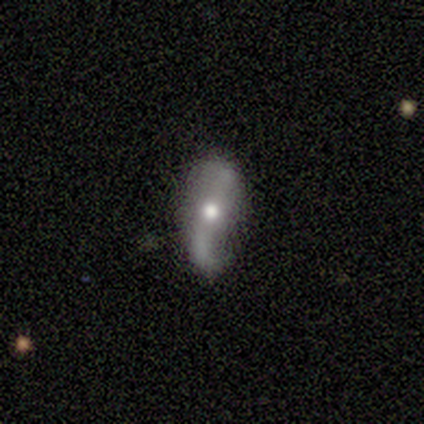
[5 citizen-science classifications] Morphology: type=featured or disk (80%); edge-on=no (75%); bar=no (100%); spiral arms=yes (67%); winding=loose (100%); arm count=1 (100%); bulge=moderate (67%); merging=none (100%).